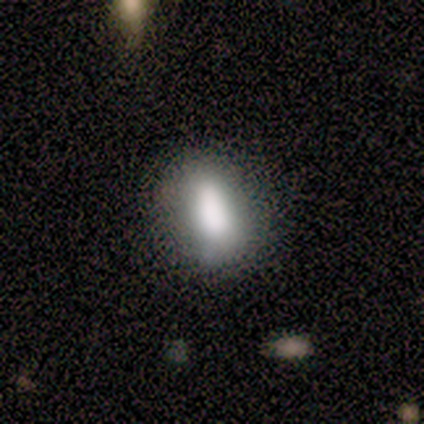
Morphology: type=smooth (88%); roundness=in between (57%); merging=none (75%).